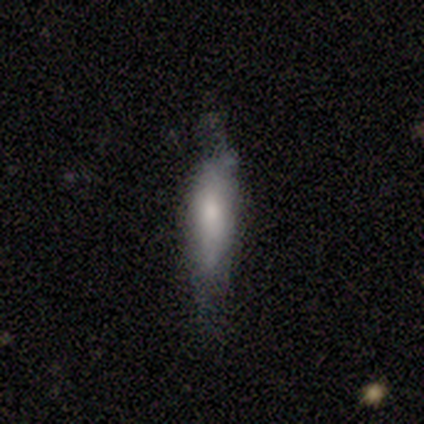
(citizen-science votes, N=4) Overall: smooth (75%). How rounded: cigar-shaped (67%; in between 33%). Merging: minor disturbance (67%; major disturbance 33%).